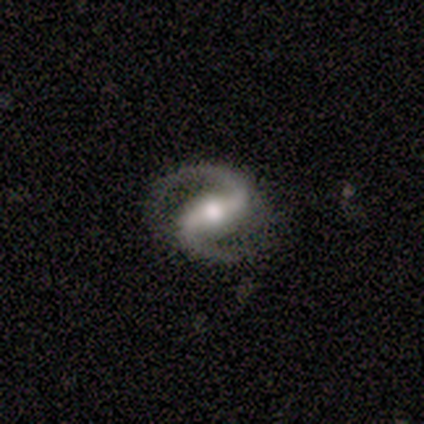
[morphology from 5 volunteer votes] Smooth or featured? 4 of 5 (80%) said featured or disk. Edge-on disk? 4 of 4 (100%) said no. Bar? 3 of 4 (75%) said strong. Spiral arms? 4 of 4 (100%) said yes. Spiral winding? 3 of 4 (75%) said medium. Spiral arm count? 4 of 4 (100%) said 2. Bulge size? 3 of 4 (75%) said moderate. Merging? 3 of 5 (60%) said none.